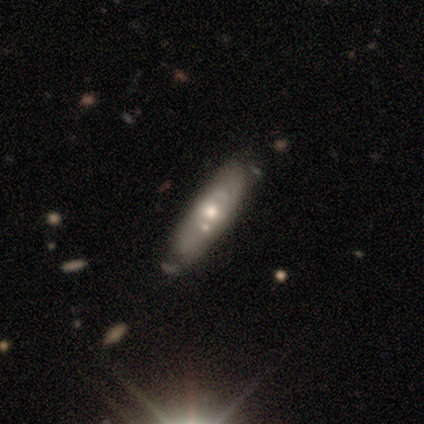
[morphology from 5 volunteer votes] smooth_or_featured: featured or disk (p=0.80) [alt: smooth p=0.20]
disk_edge_on: no (p=1.00)
bar: no (p=0.75) [alt: weak p=0.25]
has_spiral_arms: no (p=1.00)
bulge_size: moderate (p=0.75) [alt: none p=0.25]
merging: none (p=0.40) [alt: minor disturbance p=0.20]